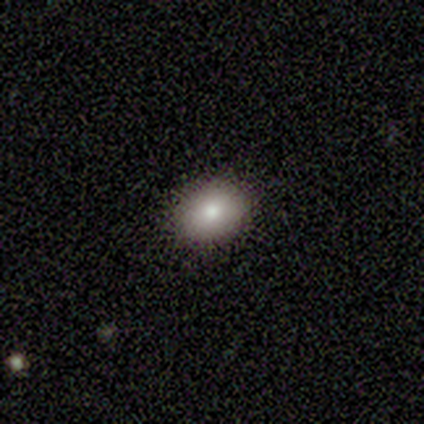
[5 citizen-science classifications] A smooth galaxy with no disk features (100%) that is round (80%). Merging: none (100%).